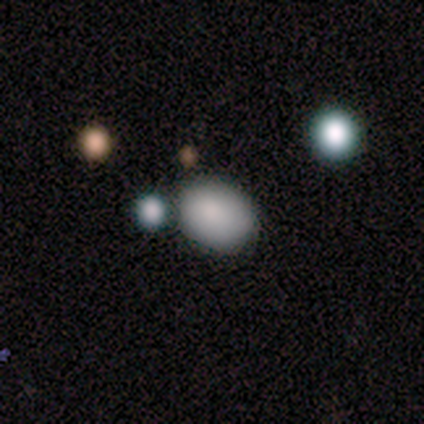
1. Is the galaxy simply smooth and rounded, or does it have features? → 80% smooth, 20% star or artifact, 0% featured or disk.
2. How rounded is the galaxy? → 100% in between, 0% round, 0% cigar-shaped.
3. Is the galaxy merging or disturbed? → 100% none, 0% minor disturbance, 0% major disturbance, 0% merger.